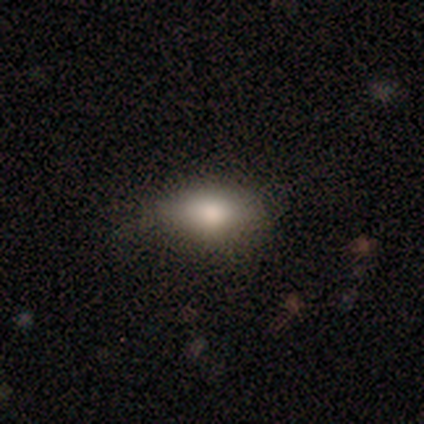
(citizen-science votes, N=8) Smooth or featured? smooth (88%)
How rounded? in between (100%)
Merging? none (100%)